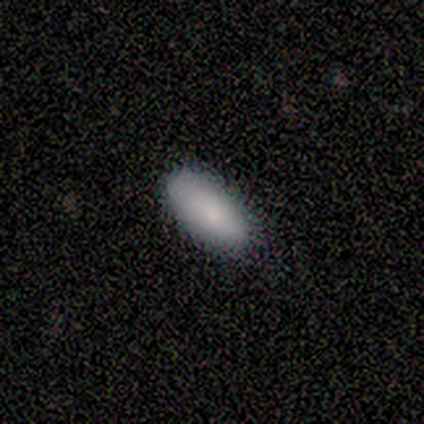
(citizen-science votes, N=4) Volunteers were most divided on "how rounded": in between: 75%, cigar-shaped: 25%, round: 0%. More confident: smooth or featured — smooth (100%); merging — none (100%).